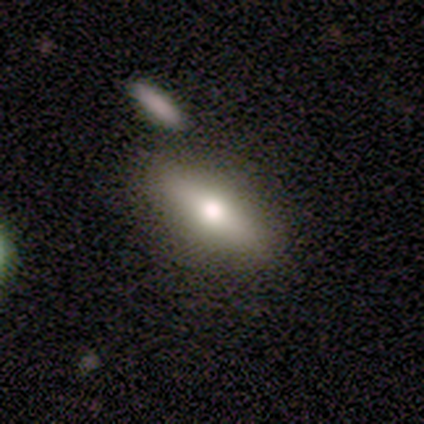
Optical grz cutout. It shows a smooth galaxy with no disk features (60%) that is cigar-shaped (67%). Merging: none (60%).